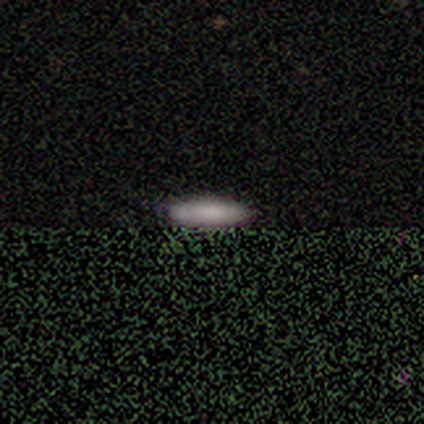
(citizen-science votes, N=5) smooth 100%, featured or disk 0%, star or artifact 0%. Down the decision tree: how rounded — cigar-shaped (80%); merging — none (100%).